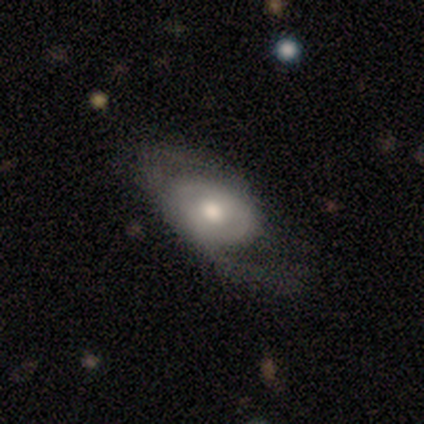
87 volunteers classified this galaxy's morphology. Smooth or featured: featured or disk — 56% (smooth — 36%)
Edge-on disk: no — 80% (yes — 20%)
Bar: no — 74% (weak — 15%)
Spiral arms: yes — 67% (no — 33%)
Spiral winding: loose — 54% (tight — 23%)
Spiral arm count: 2 — 58% (1 — 23%)
Bulge size: moderate — 74% (large — 18%)
Merging: none — 51% (minor disturbance — 28%)